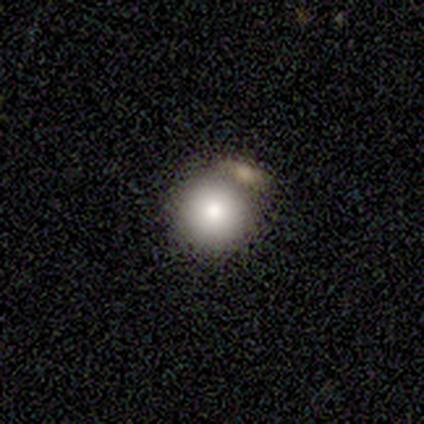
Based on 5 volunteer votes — This is clearly a smooth galaxy (80%). How rounded: likely round (75%). Merging: marginally minor disturbance (40%, tied with merger).